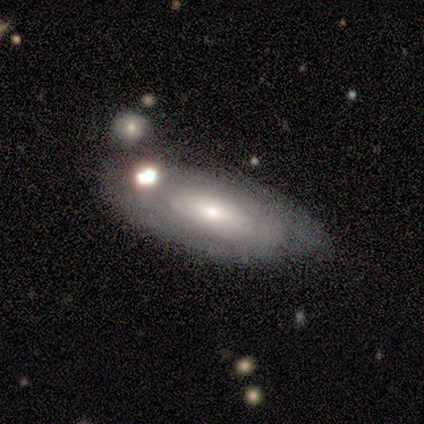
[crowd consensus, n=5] Q: Smooth or featured?
A: smooth (100%)
Q: How rounded?
A: in between (80%); runner-up: cigar-shaped (20%)
Q: Merging?
A: none (80%); runner-up: minor disturbance (20%)